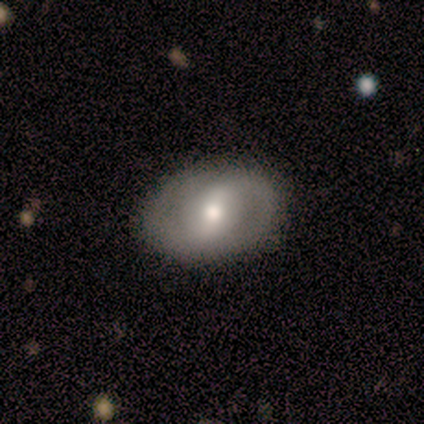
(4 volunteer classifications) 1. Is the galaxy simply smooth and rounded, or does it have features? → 75% featured or disk, 25% smooth, 0% star or artifact.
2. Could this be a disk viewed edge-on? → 100% no, 0% yes.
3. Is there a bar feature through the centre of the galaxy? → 67% no, 33% strong, 0% weak.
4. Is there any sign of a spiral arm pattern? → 67% yes, 33% no.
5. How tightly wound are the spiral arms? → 100% loose, 0% tight, 0% medium.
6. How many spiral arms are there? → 50% 2 (tied), 50% can't tell (tied), 0% 1, 0% 3, 0% 4, 0% more than 4.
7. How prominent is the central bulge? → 67% small, 33% moderate, 0% dominant, 0% large, 0% none.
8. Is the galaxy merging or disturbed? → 75% none, 25% minor disturbance, 0% major disturbance, 0% merger.